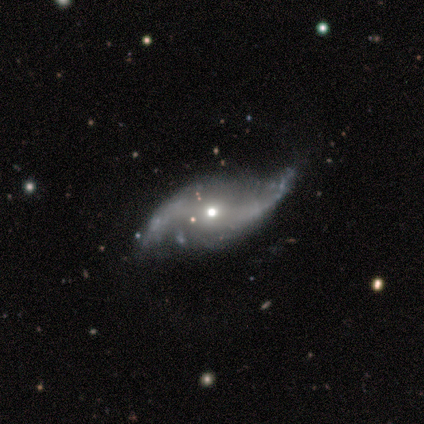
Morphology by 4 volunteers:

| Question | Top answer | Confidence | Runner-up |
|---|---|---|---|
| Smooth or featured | featured or disk | 100% | — |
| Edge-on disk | no | 100% | — |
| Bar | no | 50% | strong (25%) |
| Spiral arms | yes | 100% | — |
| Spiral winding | loose | 75% | medium (25%) |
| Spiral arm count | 2 | 100% | — |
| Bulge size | moderate | 75% | small (25%) |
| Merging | none | 50% | tied: minor disturbance (50%) |